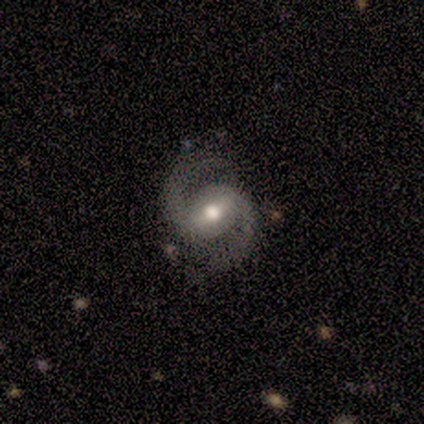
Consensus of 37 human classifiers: This is clearly a featured or disk galaxy (89%). It is clearly not viewed edge-on (100%). Bar: possibly weak (45%). Spiral arm pattern: clearly yes (100%). Spiral arm count: clearly 2 (97%). Spiral winding: possibly medium (55%). Central bulge: clearly moderate (85%). Merging: clearly none (82%).